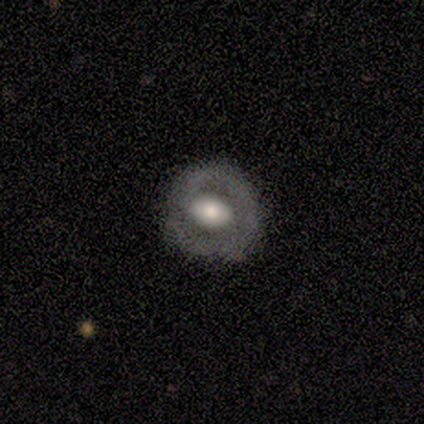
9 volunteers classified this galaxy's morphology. Smooth or featured? 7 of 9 (78%) said smooth. How rounded? 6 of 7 (86%) said round. Merging? 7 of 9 (78%) said none.